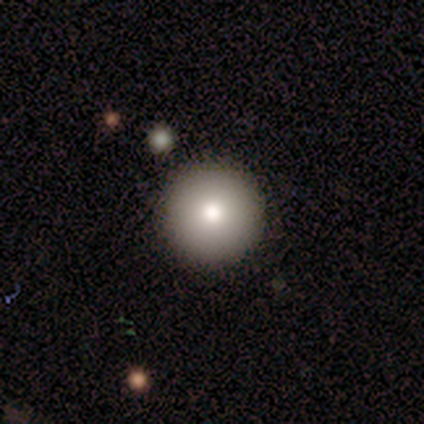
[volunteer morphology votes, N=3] Volunteers were most divided on "smooth or featured": smooth: 67%, featured or disk: 33%, star or artifact: 0%. More confident: how rounded — round (100%); merging — none (100%).